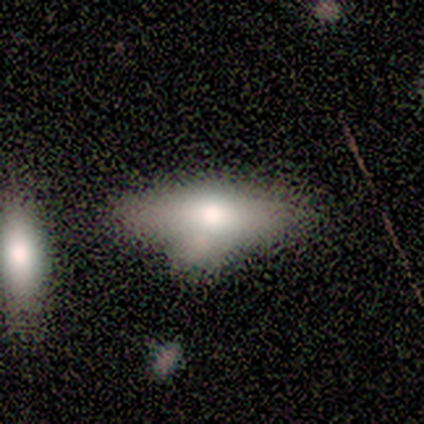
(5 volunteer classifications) smooth_or_featured: smooth (p=0.40) [tied with: star or artifact p=0.40]
how_rounded: in between (p=1.00)
merging: major disturbance (p=0.67) [alt: none p=0.33]